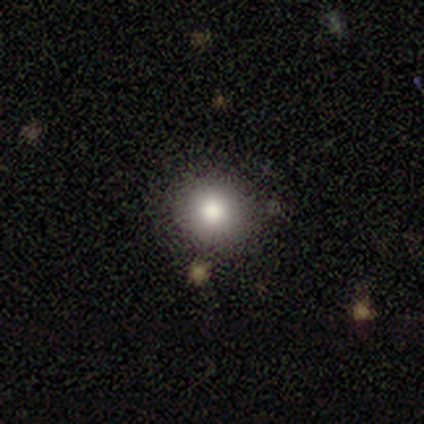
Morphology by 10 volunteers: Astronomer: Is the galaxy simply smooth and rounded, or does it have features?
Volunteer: smooth — 70%.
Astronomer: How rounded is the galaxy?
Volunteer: round — 86%.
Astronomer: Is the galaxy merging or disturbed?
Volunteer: none — 100%.